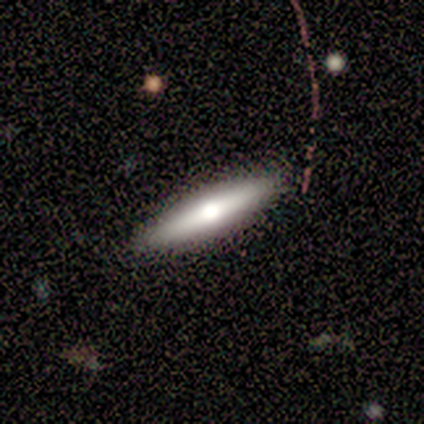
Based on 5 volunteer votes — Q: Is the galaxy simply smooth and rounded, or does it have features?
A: featured or disk — 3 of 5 (60%).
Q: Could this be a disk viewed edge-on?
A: yes — 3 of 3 (100%).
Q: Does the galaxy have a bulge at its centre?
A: rounded — 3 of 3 (100%).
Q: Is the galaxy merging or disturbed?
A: none — 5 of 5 (100%).